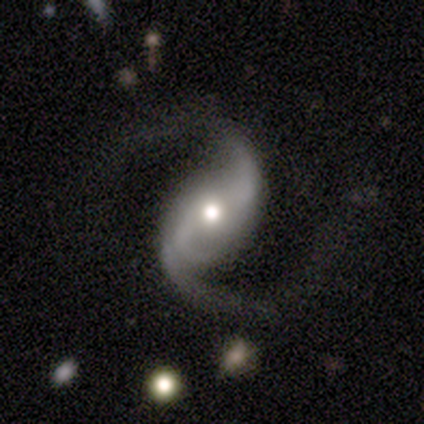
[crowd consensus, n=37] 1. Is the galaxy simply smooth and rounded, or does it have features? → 95% featured or disk, 3% smooth, 3% star or artifact.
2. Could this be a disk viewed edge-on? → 97% no, 3% yes.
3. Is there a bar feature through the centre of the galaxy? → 41% no, 29% strong, 29% weak.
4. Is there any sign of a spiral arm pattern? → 94% yes, 6% no.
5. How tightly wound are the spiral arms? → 59% loose, 34% medium, 6% tight.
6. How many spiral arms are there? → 81% 2, 12% 3, 3% 1, 3% can't tell, 0% 4, 0% more than 4.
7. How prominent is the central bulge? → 71% moderate, 24% small, 6% large, 0% dominant, 0% none.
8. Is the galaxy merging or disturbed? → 75% none, 19% major disturbance, 3% minor disturbance, 3% merger.